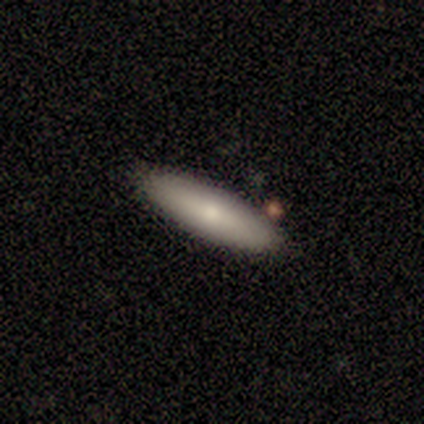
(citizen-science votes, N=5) This appears to be a smooth galaxy with no disk features (80%) that is in between round and cigar-shaped (50%, tied with cigar-shaped). Merging: none (100%).